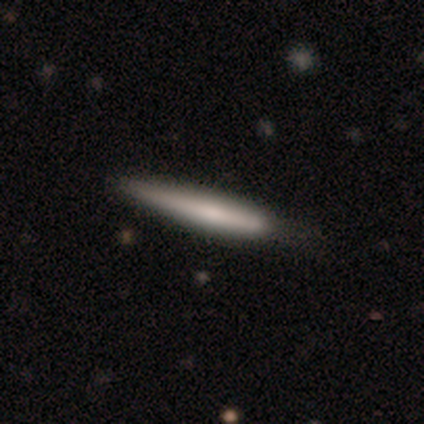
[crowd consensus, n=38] Volunteers were most divided on "merging": none: 41%, minor disturbance: 30%, major disturbance: 3%, merger: 0%. More confident: how rounded — cigar-shaped (100%); smooth or featured — smooth (55%).